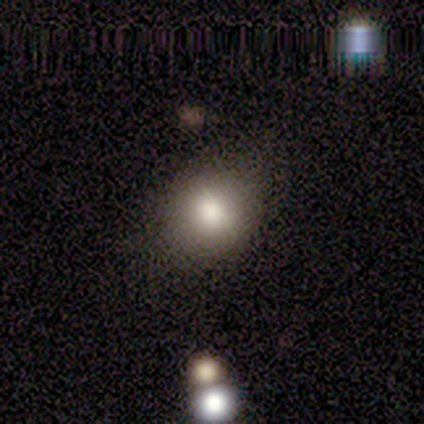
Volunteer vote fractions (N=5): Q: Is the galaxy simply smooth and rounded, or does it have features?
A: smooth — 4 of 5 (80%).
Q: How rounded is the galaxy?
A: round — 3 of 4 (75%).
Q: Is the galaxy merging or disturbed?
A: none — 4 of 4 (100%).